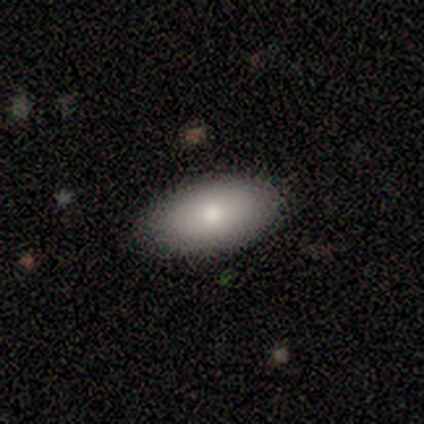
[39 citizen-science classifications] Smooth or featured? smooth (67%)
How rounded? in between (92%)
Merging? none (89%)